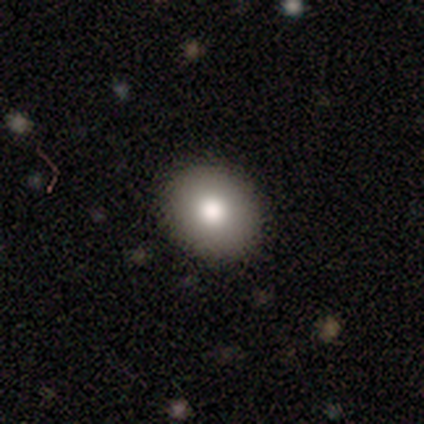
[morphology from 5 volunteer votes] Smooth or featured? 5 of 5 (100%) said smooth. How rounded? 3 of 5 (60%) said round. Merging? 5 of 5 (100%) said none.